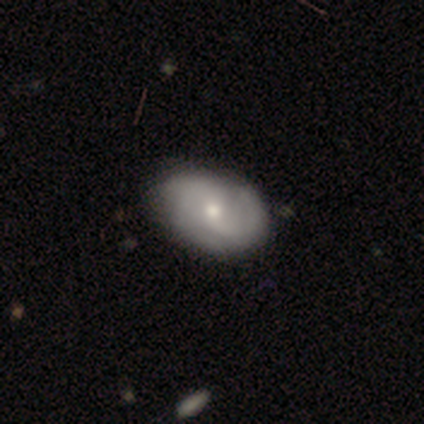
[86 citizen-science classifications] A featured or disk galaxy (66%) with no bar (56%), 2 (54%) medium (50%) spiral arms (87%) and a small central bulge (64%). Merging: none (84%).